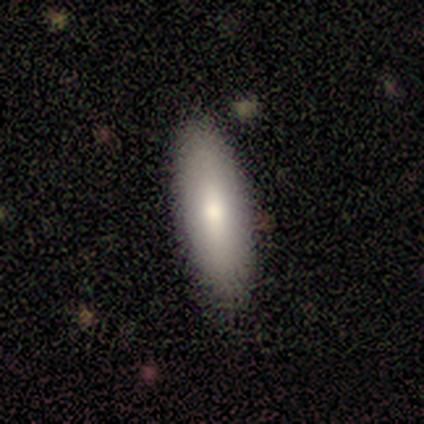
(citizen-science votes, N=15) This appears to be a smooth galaxy with no disk features (87%) that is in between round and cigar-shaped (77%). Merging: none (80%).